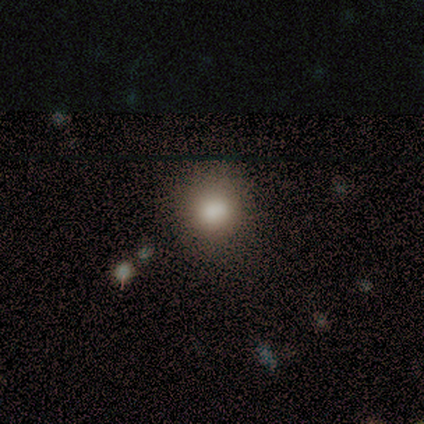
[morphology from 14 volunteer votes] Q: Smooth or featured?
A: smooth (86%); runner-up: featured or disk (7%)
Q: How rounded?
A: round (83%); runner-up: in between (17%)
Q: Merging?
A: none (92%); runner-up: minor disturbance (8%)